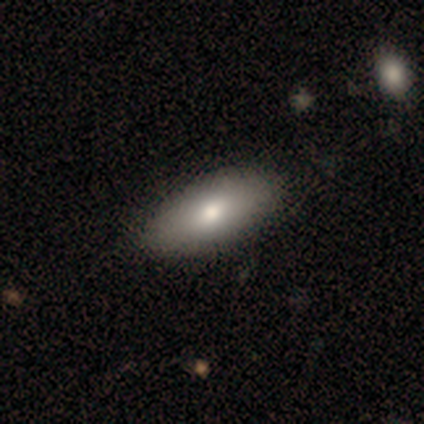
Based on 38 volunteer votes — Smooth or featured? 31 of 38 (82%) said smooth. How rounded? 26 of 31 (84%) said in between. Merging? 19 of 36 (53%) said none.